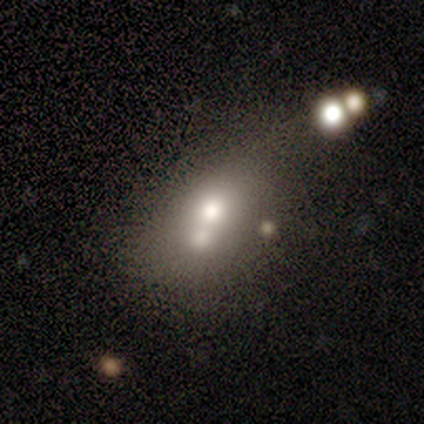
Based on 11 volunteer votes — A smooth galaxy with no disk features (73%) that is in between round and cigar-shaped (100%).

Vote fractions:
- Smooth or featured? smooth: 73% / featured or disk: 18% / star or artifact: 9%
- How rounded? in between: 100% / round: 0% / cigar-shaped: 0%
- Merging? merger: 70% / major disturbance: 20% / minor disturbance: 10% / none: 0%